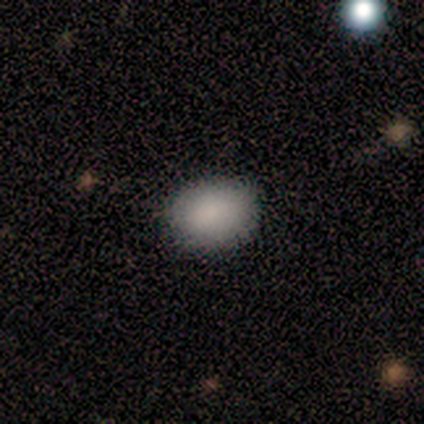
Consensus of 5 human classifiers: This is clearly a smooth galaxy (100%). How rounded: clearly in between (80%). Merging: clearly none (80%).